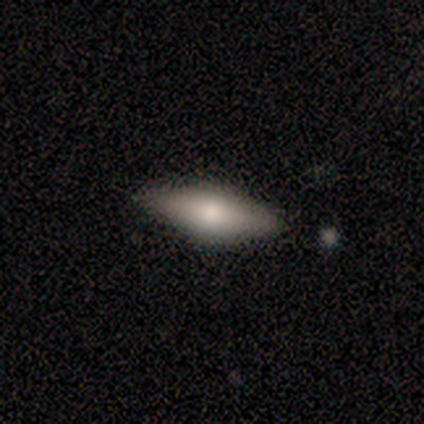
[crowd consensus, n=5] smooth-or-featured: smooth: 100% | featured or disk: 0% | star or artifact: 0%
  how-rounded: in between: 100% | round: 0% | cigar-shaped: 0%
  merging: none: 100% | minor disturbance: 0% | major disturbance: 0% | merger: 0%